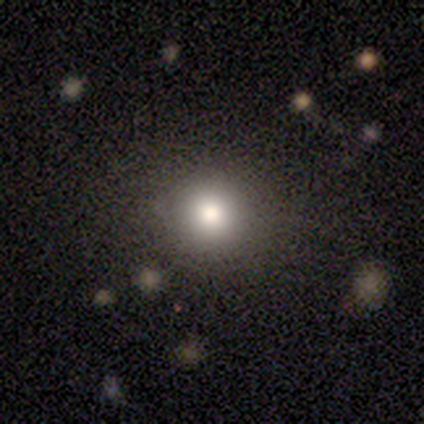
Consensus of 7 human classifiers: smooth_or_featured: smooth (p=0.71) [alt: star or artifact p=0.29]
how_rounded: round (p=1.00)
merging: none (p=0.80) [alt: major disturbance p=0.20]